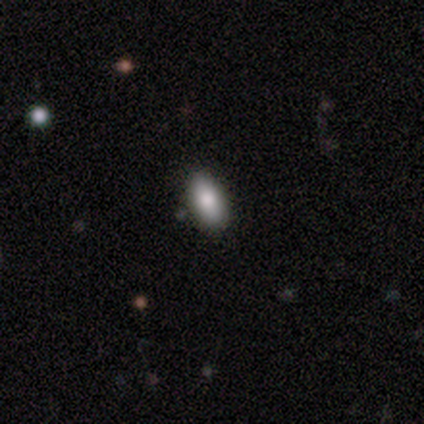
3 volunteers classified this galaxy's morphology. This appears to be a smooth galaxy with no disk features (100%) that is in between round and cigar-shaped (100%). Merging: none (67%).